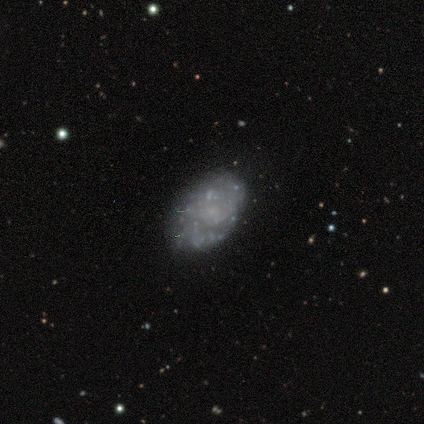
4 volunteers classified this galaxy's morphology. Overall: featured or disk (50%; smooth 25%). Edge-on disk: no (100%). Bar: no (100%). Spiral arms: no (100%). Bulge size: small (50%, tied with none). Merging: none (100%).